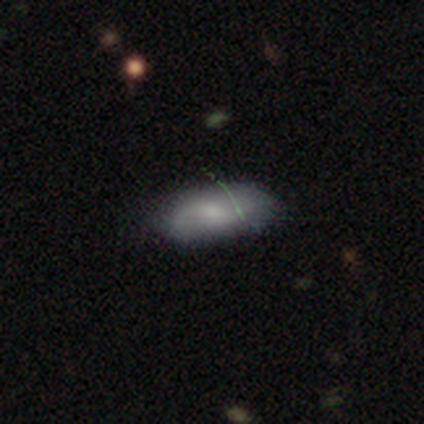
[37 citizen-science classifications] A smooth galaxy with no disk features (57%) that is in between round and cigar-shaped (90%).

Vote fractions:
- Smooth or featured? smooth: 57% / featured or disk: 32% / star or artifact: 11%
- How rounded? in between: 90% / round: 5% / cigar-shaped: 5%
- Merging? none: 70% / minor disturbance: 24% / major disturbance: 6% / merger: 0%